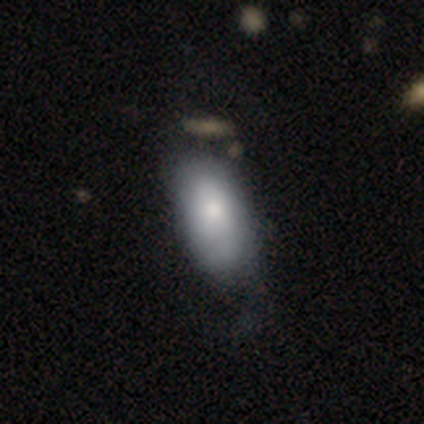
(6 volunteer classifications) Overall: smooth (83%). How rounded: in between (100%). Merging: minor disturbance (60%; none 20%).